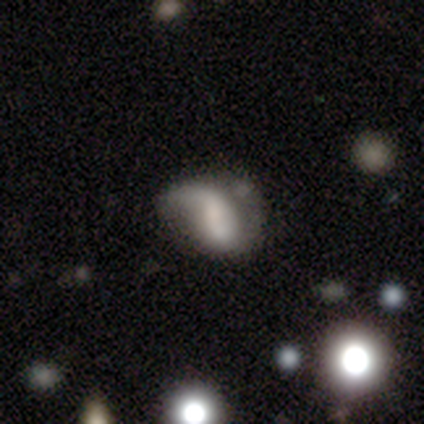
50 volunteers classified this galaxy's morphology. Volunteers were most divided on "bar": no: 46%, weak: 42%, strong: 12%. Remaining: edge-on disk — no (100%); spiral winding — loose (79%); spiral arm count — 1 (71%); spiral arms — yes (54%); smooth or featured — featured or disk (52%); bulge size — none (50%); merging — major disturbance (45%).